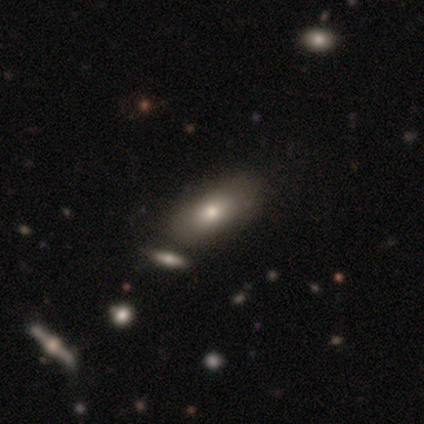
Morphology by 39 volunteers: Overall: smooth (87%). How rounded: in between (94%). Merging: none (62%).